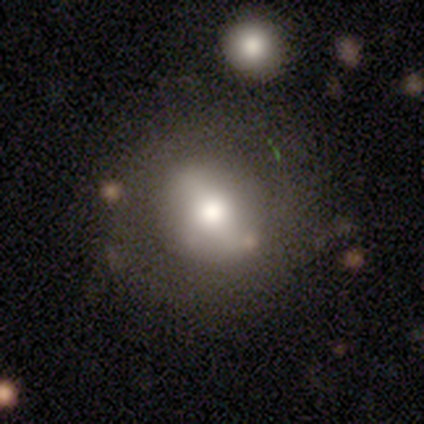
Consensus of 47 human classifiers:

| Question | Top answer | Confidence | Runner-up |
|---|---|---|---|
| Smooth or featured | smooth | 66% | featured or disk (26%) |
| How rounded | round | 81% | in between (19%) |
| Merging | none | 74% | minor disturbance (19%) |